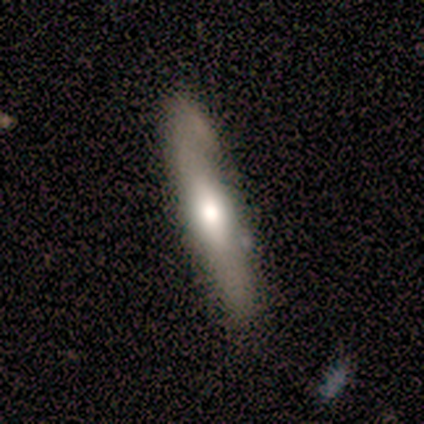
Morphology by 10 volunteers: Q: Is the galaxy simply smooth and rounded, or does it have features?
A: featured or disk — 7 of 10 (70%).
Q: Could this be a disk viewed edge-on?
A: yes — 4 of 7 (57%).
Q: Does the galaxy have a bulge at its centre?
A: rounded — 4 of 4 (100%).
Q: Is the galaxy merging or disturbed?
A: none — 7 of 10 (70%).